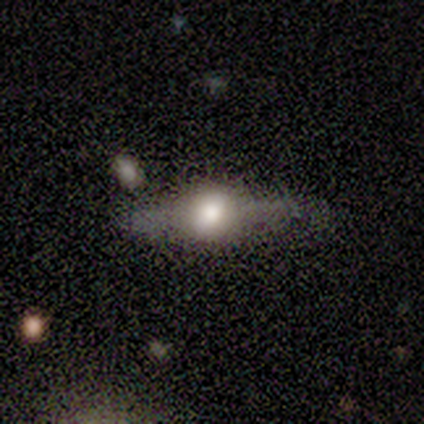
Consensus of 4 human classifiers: Smooth or featured?
  - featured or disk: 100% *
  - smooth: 0%
  - star or artifact: 0%
Edge-on disk?
  - yes: 100% *
  - no: 0%
Edge-on bulge?
  - rounded: 100% *
  - boxy: 0%
  - none: 0%
Merging?
  - none: 75% *
  - minor disturbance: 25%
  - major disturbance: 0%
  - merger: 0%